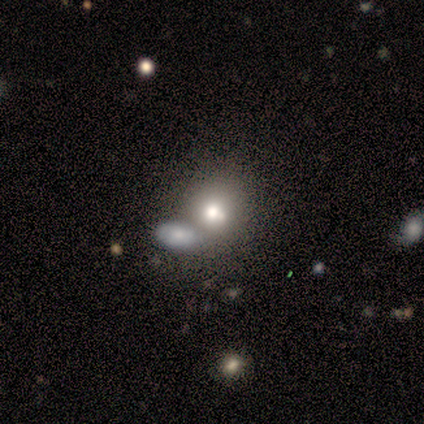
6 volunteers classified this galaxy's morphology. Q: Smooth or featured?
A: smooth (83%); runner-up: featured or disk (17%)
Q: How rounded?
A: round (80%); runner-up: in between (20%)
Q: Merging?
A: none (50%); runner-up: minor disturbance (33%)